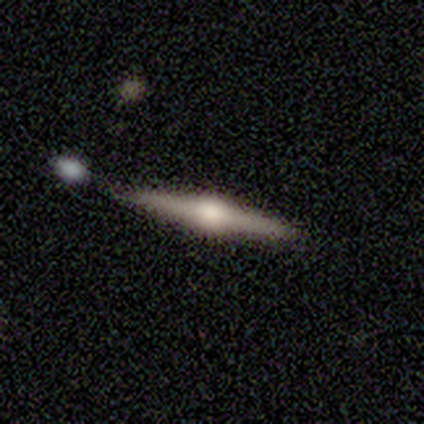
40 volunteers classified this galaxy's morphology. smooth-or-featured: featured or disk: 72% | smooth: 28% | star or artifact: 0%
  disk-edge-on: yes: 100% | no: 0%
    edge-on-bulge: rounded: 100% | boxy: 0% | none: 0%
  merging: none: 80% | minor disturbance: 18% | merger: 2% | major disturbance: 0%